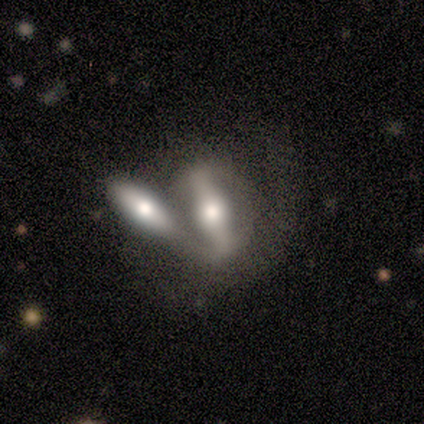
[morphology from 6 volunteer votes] Smooth or featured? 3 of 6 (50%, tied with featured or disk) said smooth. How rounded? 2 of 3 (67%) said cigar-shaped. Merging? 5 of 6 (83%) said merger.